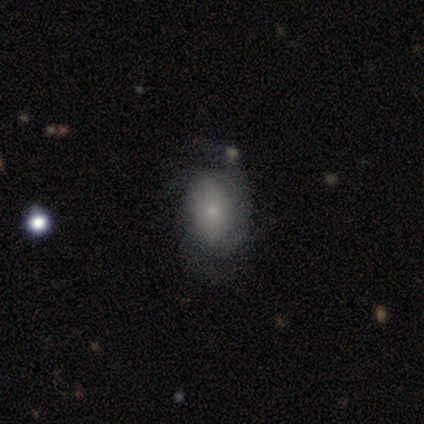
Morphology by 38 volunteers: featured or disk 55%, smooth 42%, star or artifact 3%. Down the decision tree: edge-on disk — no (95%); bar — no (95%); spiral arms — yes (75%); spiral arm count — 3 (40%); spiral winding — tight (40%); bulge size — small (75%); merging — none (51%).